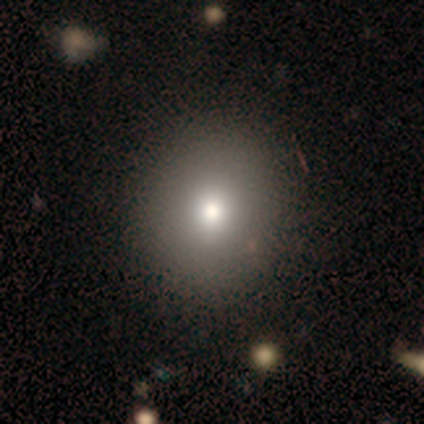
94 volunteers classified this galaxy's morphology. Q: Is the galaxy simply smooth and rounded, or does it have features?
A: smooth — 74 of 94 (79%).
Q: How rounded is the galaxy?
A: round — 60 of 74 (81%).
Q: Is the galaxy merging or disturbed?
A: none — 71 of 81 (88%).